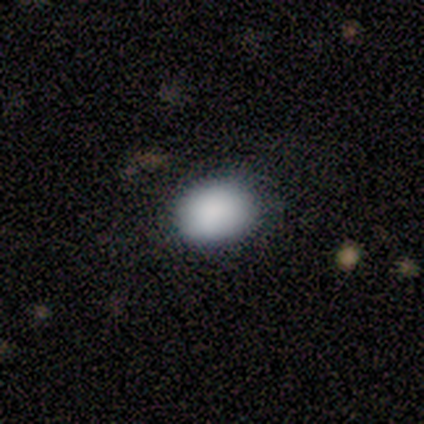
smooth 92%, featured or disk 8%, star or artifact 0%. Down the decision tree: how rounded — round (50%, tied with in between); merging — none (51%).